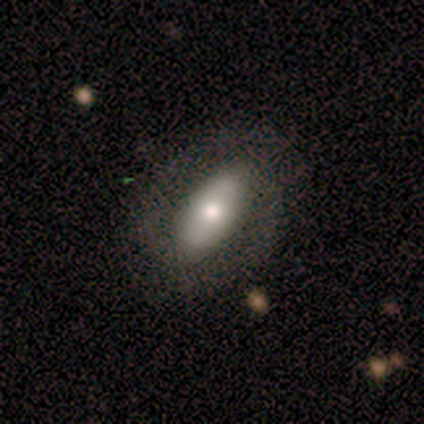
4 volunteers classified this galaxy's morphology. Q: Smooth or featured?
A: featured or disk (75%); runner-up: smooth (25%)
Q: Edge-on disk?
A: no (100%)
Q: Bar?
A: no (67%); runner-up: strong (33%)
Q: Spiral arms?
A: yes (67%); runner-up: no (33%)
Q: Spiral winding?
A: tight (100%)
Q: Spiral arm count?
A: 2 (100%)
Q: Bulge size?
A: large (67%); runner-up: small (33%)
Q: Merging?
A: none (75%); runner-up: minor disturbance (25%)